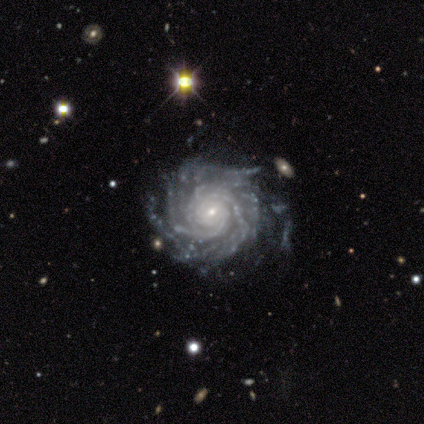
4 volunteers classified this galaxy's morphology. Smooth or featured?
  - featured or disk: 100% *
  - smooth: 0%
  - star or artifact: 0%
Edge-on disk?
  - no: 100% *
  - yes: 0%
Bar?
  - no: 75% *
  - weak: 25%
  - strong: 0%
Spiral arms?
  - yes: 100% *
  - no: 0%
Spiral winding?
  - tight: 100% *
  - medium: 0%
  - loose: 0%
Spiral arm count?
  - can't tell: 50% *
  - 2: 25%
  - 3: 25%
  - 1: 0%
  - 4: 0%
  - more than 4: 0%
Bulge size?
  - small: 75% *
  - moderate: 25%
  - dominant: 0%
  - large: 0%
  - none: 0%
Merging?
  - minor disturbance: 50% *
  - none: 25%
  - merger: 25%
  - major disturbance: 0%